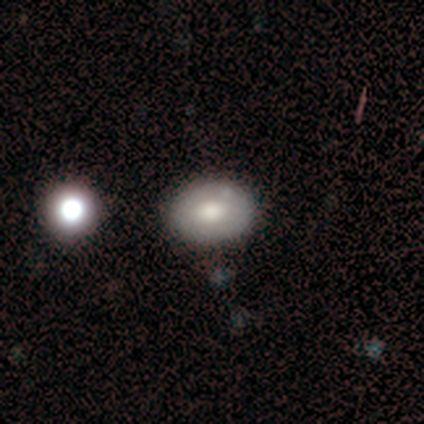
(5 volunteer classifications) This appears to be a smooth galaxy with no disk features (60%) that is round (67%). Merging: none (80%).